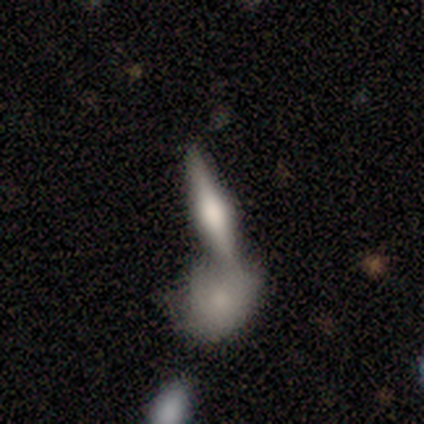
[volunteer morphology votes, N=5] Volunteers were most divided on "merging": none: 50%, major disturbance: 25%, merger: 25%, minor disturbance: 0%. More confident: how rounded — cigar-shaped (67%); smooth or featured — smooth (60%).